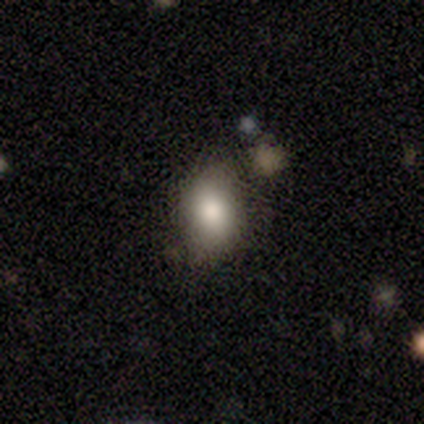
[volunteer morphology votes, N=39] A smooth galaxy with no disk features (79%) that is in between round and cigar-shaped (84%).

Vote fractions:
- Smooth or featured? smooth: 79% / star or artifact: 15% / featured or disk: 5%
- How rounded? in between: 84% / round: 13% / cigar-shaped: 3%
- Merging? none: 67% / minor disturbance: 21% / major disturbance: 9% / merger: 3%